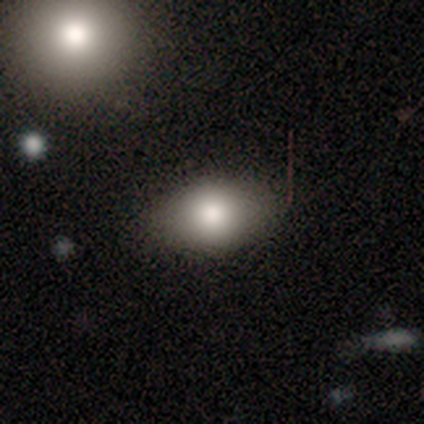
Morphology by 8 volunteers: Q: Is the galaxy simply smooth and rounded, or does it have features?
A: smooth — 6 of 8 (75%).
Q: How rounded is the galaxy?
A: in between — 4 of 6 (67%).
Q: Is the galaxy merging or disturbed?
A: none — 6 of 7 (86%).